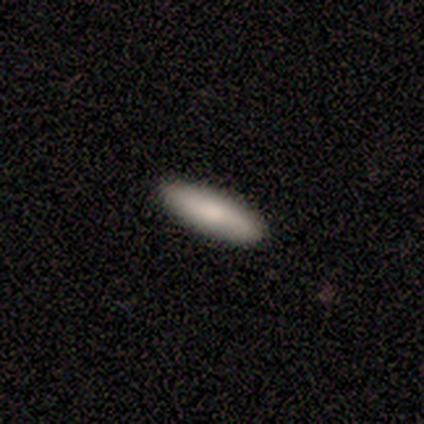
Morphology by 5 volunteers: A smooth galaxy with no disk features (80%) that is cigar-shaped (100%). Merging: none (100%).